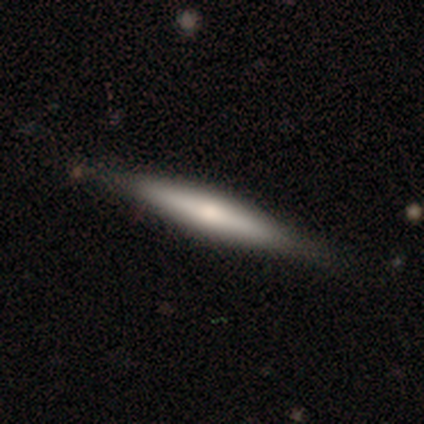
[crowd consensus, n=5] Smooth or featured?
  - smooth: 40% * (tied)
  - featured or disk: 40% * (tied)
  - star or artifact: 20%
How rounded?
  - cigar-shaped: 100% *
  - round: 0%
  - in between: 0%
Merging?
  - none: 75% *
  - minor disturbance: 25%
  - major disturbance: 0%
  - merger: 0%